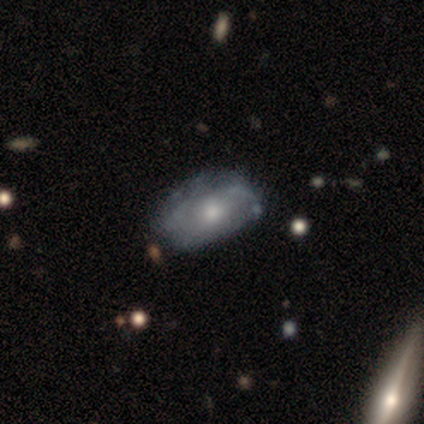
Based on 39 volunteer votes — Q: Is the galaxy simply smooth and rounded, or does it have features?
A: featured or disk — 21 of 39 (54%).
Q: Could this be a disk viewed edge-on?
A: no — 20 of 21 (95%).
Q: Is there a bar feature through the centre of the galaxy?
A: no — 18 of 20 (90%).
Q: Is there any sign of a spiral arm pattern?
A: no — 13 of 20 (65%).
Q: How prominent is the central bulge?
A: moderate — 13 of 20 (65%).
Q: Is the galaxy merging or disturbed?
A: none — 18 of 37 (49%).